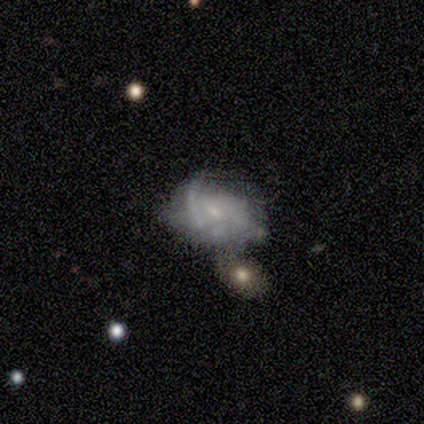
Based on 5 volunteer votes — This is likely a featured or disk galaxy (60%). It is clearly not viewed edge-on (100%). Bar: likely no (67%). Spiral arm pattern: likely no (67%). Central bulge: likely small (67%). Merging: marginally major disturbance (40%).